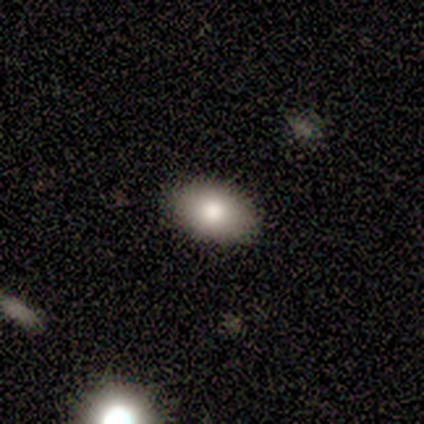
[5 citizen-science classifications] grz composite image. It shows a smooth galaxy with no disk features (60%) that is in between round and cigar-shaped (67%). Merging: none (100%).